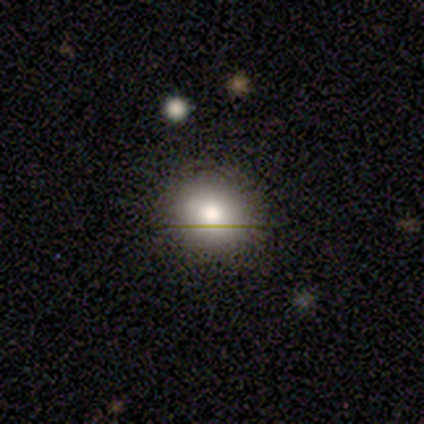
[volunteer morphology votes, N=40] A smooth galaxy with no disk features (90%) that is round (75%). Merging: none (72%).